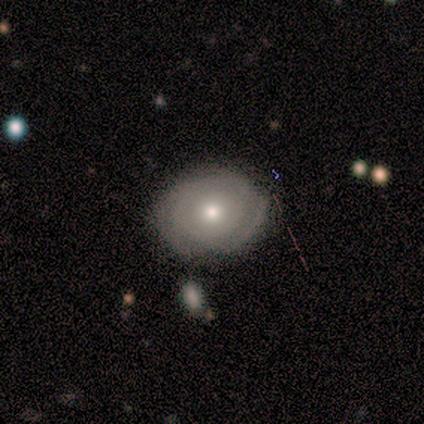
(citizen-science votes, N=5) smooth_or_featured: featured or disk (p=0.60) [alt: smooth p=0.40]
disk_edge_on: no (p=1.00)
bar: no (p=0.67) [alt: strong p=0.33]
has_spiral_arms: yes (p=1.00)
spiral_winding: tight (p=1.00)
spiral_arm_count: can't tell (p=1.00)
bulge_size: moderate (p=1.00)
merging: none (p=1.00)